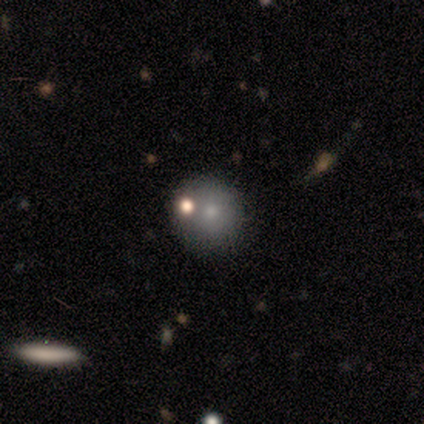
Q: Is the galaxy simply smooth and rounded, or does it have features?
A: smooth — 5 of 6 (83%).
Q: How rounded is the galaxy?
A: round — 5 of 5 (100%).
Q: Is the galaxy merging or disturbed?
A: none — 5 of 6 (83%).